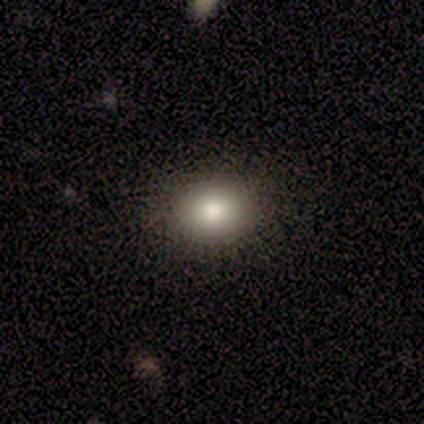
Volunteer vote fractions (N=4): This appears to be a smooth galaxy with no disk features (50%, tied with featured or disk) that is round (50%, tied with in between). Merging: none (75%).